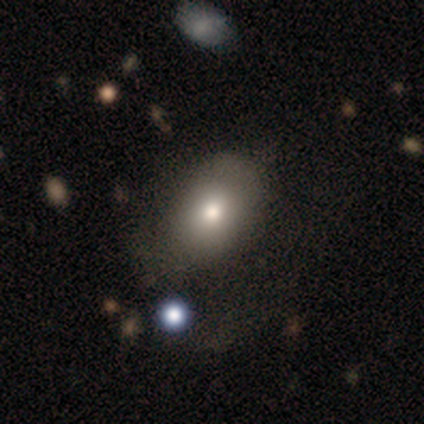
smooth_or_featured: smooth (p=0.60) [alt: featured or disk p=0.40]
how_rounded: in between (p=0.67) [alt: round p=0.33]
merging: none (p=0.40) [tied with: minor disturbance p=0.40]